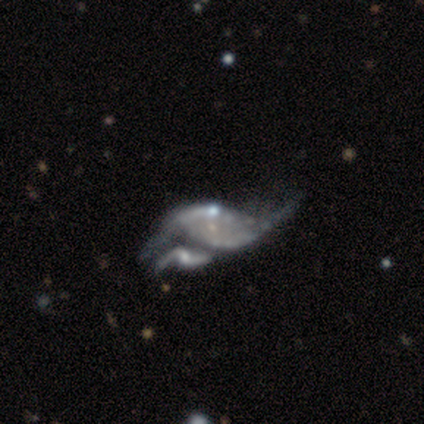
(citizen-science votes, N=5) Overall: featured or disk (80%). Edge-on disk: no (100%). Bar: no (75%). Spiral arms: no (75%). Bulge size: small (75%). Merging: minor disturbance (50%, tied with merger).